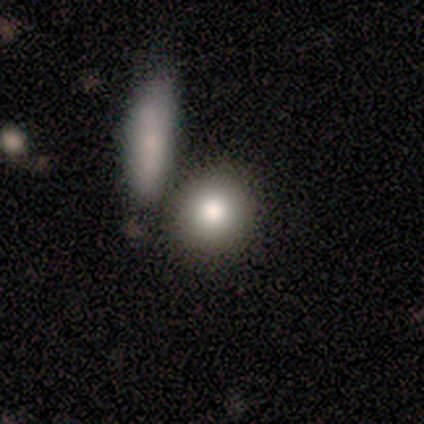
smooth_or_featured: smooth (p=1.00)
how_rounded: round (p=0.50) [tied with: in between p=0.50]
merging: none (p=0.75) [alt: merger p=0.25]